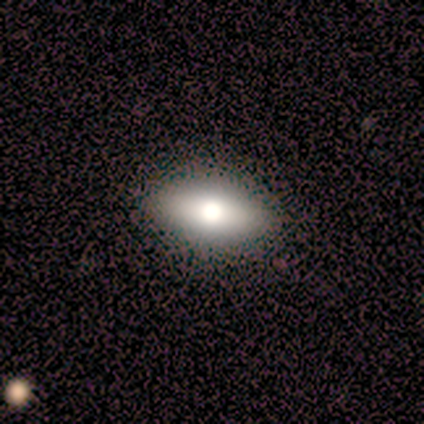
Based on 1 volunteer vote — smooth 100%, featured or disk 0%, star or artifact 0%. Down the decision tree: how rounded — in between (100%); merging — minor disturbance (100%).